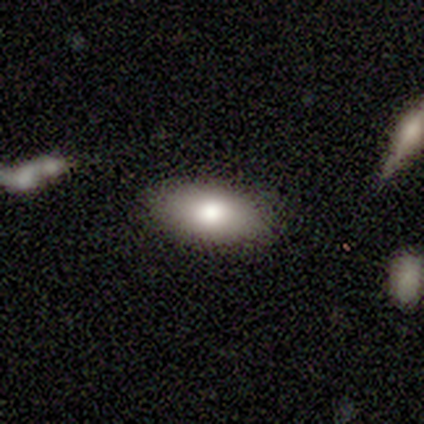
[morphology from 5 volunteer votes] Overall: smooth (80%). How rounded: in between (100%). Merging: none (100%).